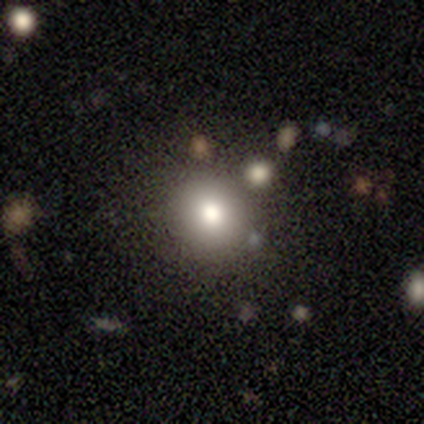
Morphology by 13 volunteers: Smooth or featured: smooth — 100%
How rounded: round — 77% (in between — 23%)
Merging: none — 85% (minor disturbance — 15%)